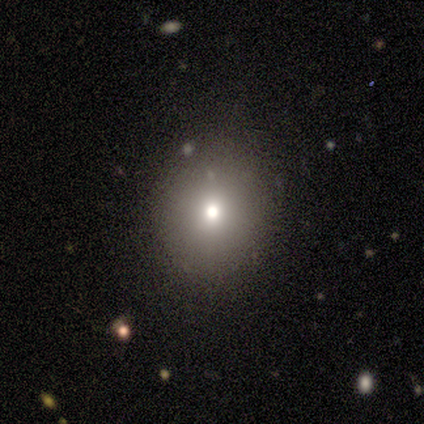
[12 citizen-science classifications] smooth 75%, featured or disk 17%, star or artifact 8%. Down the decision tree: how rounded — round (89%); merging — none (82%).